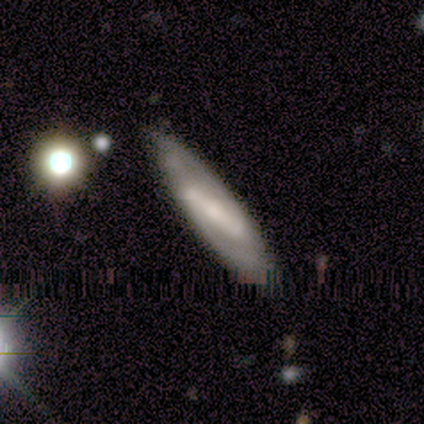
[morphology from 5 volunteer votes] Smooth or featured: featured or disk — 80% (smooth — 20%)
Edge-on disk: no — 75% (yes — 25%)
Bar: strong — 100%
Spiral arms: yes — 100%
Spiral winding: tight — 33% (tied with medium — 33%; loose — 33%)
Spiral arm count: 2 — 67% (1 — 33%)
Bulge size: large — 33% (tied with small — 33%; none — 33%)
Merging: none — 60% (minor disturbance — 40%)